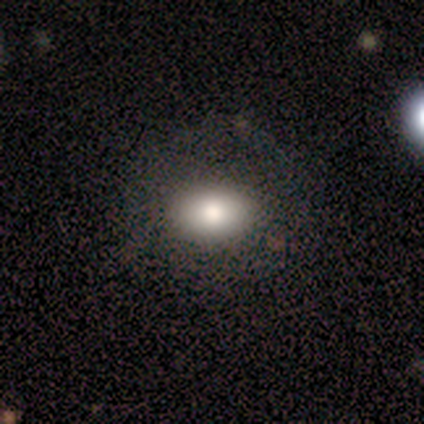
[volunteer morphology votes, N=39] Smooth or featured?
  - smooth: 69% *
  - featured or disk: 21%
  - star or artifact: 10%
How rounded?
  - in between: 85% *
  - round: 15%
  - cigar-shaped: 0%
Merging?
  - none: 77% *
  - minor disturbance: 11%
  - major disturbance: 6%
  - merger: 6%